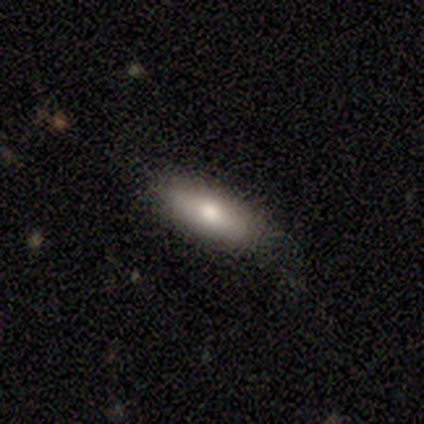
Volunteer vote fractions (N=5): Smooth or featured? smooth (60%)
How rounded? in between (100%)
Merging? none (75%)